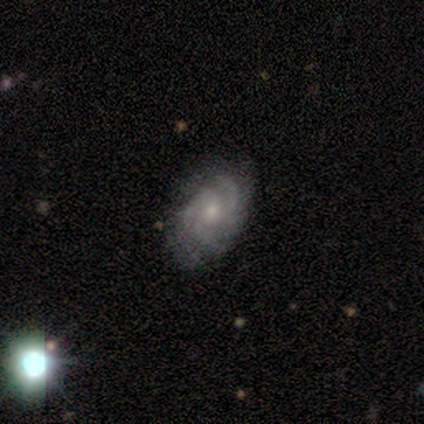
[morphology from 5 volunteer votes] Q: Smooth or featured?
A: featured or disk (60%); runner-up: smooth (20%)
Q: Edge-on disk?
A: no (100%)
Q: Bar?
A: no (67%); runner-up: weak (33%)
Q: Spiral arms?
A: yes (100%)
Q: Spiral winding?
A: medium (100%)
Q: Spiral arm count?
A: 2 (67%); runner-up: 3 (33%)
Q: Bulge size?
A: small (67%); runner-up: moderate (33%)
Q: Merging?
A: none (50%); runner-up: minor disturbance (25%)